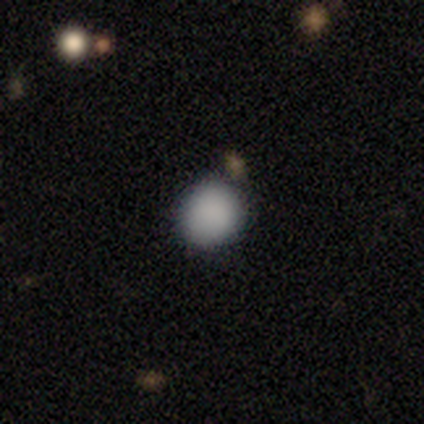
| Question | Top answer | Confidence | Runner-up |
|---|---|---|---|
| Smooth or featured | smooth | 91% | featured or disk (5%) |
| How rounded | round | 89% | in between (11%) |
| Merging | none | 85% | minor disturbance (10%) |